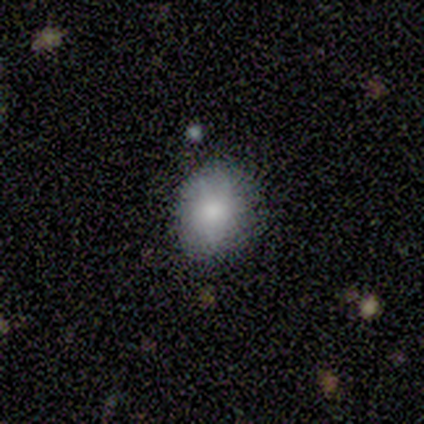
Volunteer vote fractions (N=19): Smooth or featured? 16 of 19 (84%) said smooth. How rounded? 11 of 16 (69%) said in between. Merging? 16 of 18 (89%) said none.